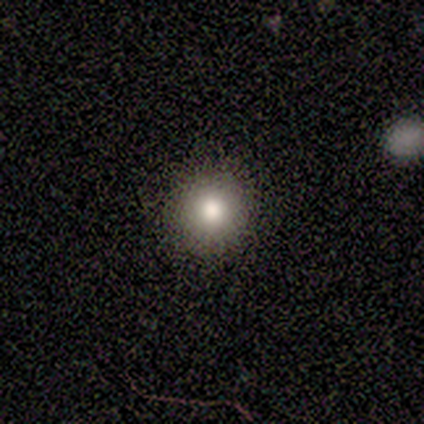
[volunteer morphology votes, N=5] Smooth or featured? smooth (100%)
How rounded? round (100%)
Merging? none (100%)